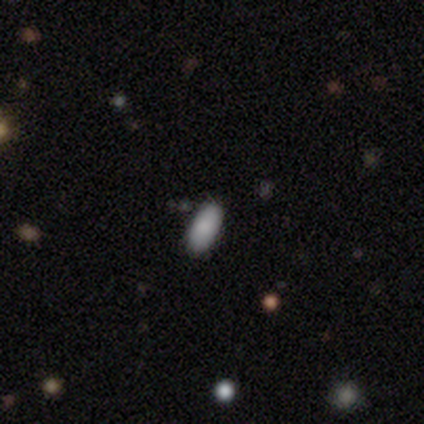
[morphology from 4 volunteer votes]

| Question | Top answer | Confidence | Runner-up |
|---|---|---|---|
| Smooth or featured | smooth | 100% | — |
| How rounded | in between | 100% | — |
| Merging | none | 100% | — |